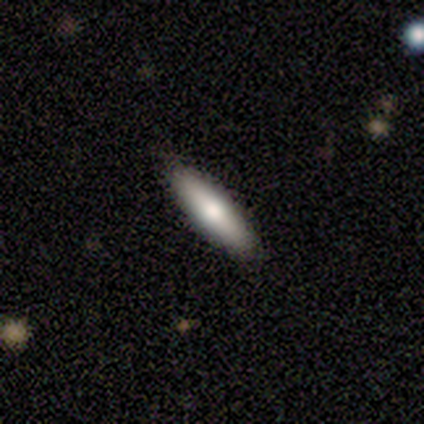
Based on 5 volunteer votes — Smooth or featured? 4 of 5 (80%) said smooth. How rounded? 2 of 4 (50%, tied with cigar-shaped) said in between. Merging? 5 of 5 (100%) said none.